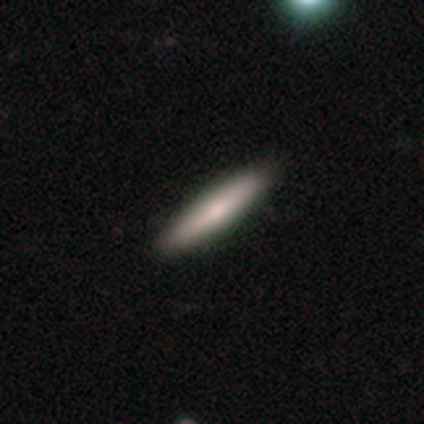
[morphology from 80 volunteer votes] Overall: smooth (70%). How rounded: cigar-shaped (93%). Merging: none (48%).